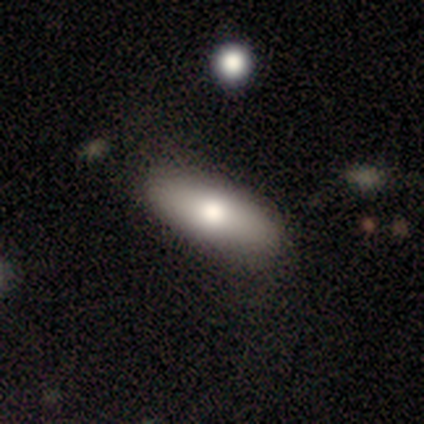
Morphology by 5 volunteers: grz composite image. It shows a smooth galaxy with no disk features (60%) that is in between round and cigar-shaped (67%). Merging: none (100%).